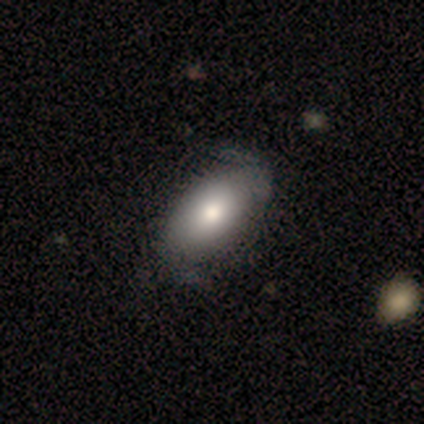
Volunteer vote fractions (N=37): Q: Smooth or featured?
A: smooth (68%); runner-up: featured or disk (32%)
Q: How rounded?
A: in between (92%); runner-up: round (4%)
Q: Merging?
A: none (43%); runner-up: minor disturbance (22%)